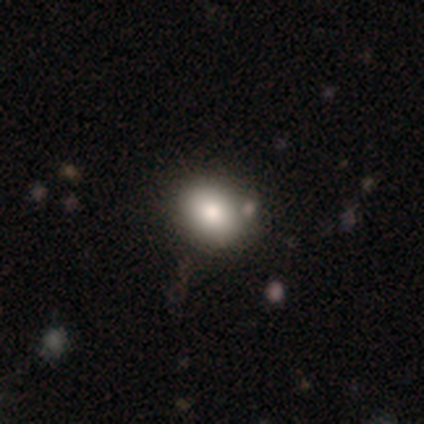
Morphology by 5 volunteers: Overall: smooth (80%). How rounded: in between (75%). Merging: none (80%).